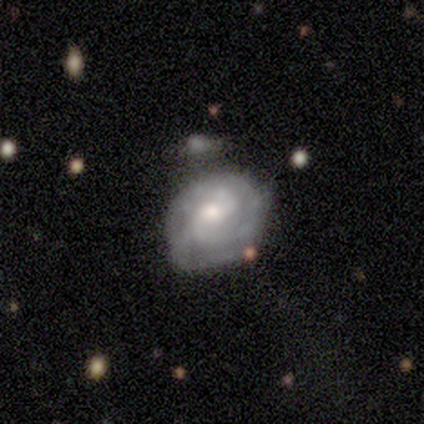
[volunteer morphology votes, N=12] Overall: featured or disk (83%). Edge-on disk: no (100%). Bar: weak (50%; no 40%). Spiral arms: yes (90%). Spiral arm count: 2 (56%; 3 22%). Spiral winding: tight (56%; medium 44%). Bulge size: moderate (40%, tied with small). Merging: none (64%).